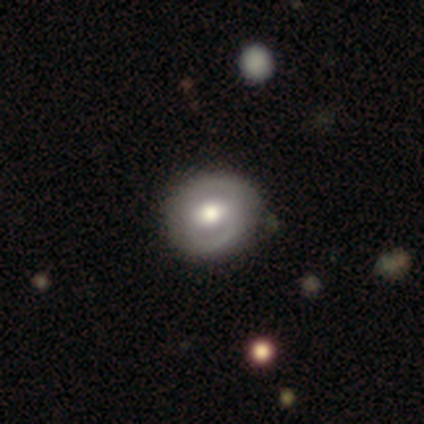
Smooth or featured?
  - featured or disk: 100% *
  - smooth: 0%
  - star or artifact: 0%
Edge-on disk?
  - no: 100% *
  - yes: 0%
Bar?
  - strong: 40% * (tied)
  - no: 40% * (tied)
  - weak: 20%
Spiral arms?
  - yes: 80% *
  - no: 20%
Spiral winding?
  - tight: 75% *
  - loose: 25%
  - medium: 0%
Spiral arm count?
  - 2: 75% *
  - 1: 25%
  - 3: 0%
  - 4: 0%
  - more than 4: 0%
  - can't tell: 0%
Bulge size?
  - moderate: 60% *
  - large: 40%
  - dominant: 0%
  - small: 0%
  - none: 0%
Merging?
  - none: 60% *
  - minor disturbance: 20%
  - merger: 20%
  - major disturbance: 0%